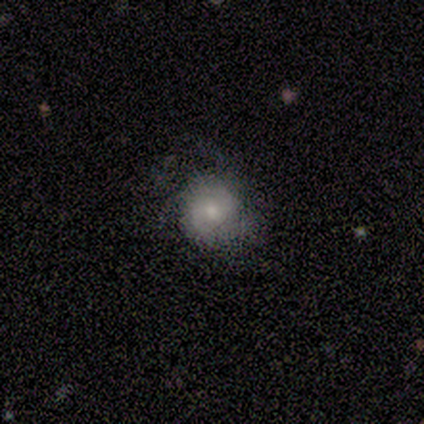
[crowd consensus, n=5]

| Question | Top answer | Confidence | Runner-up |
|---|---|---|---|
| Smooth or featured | featured or disk | 60% | smooth (40%) |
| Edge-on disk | no | 100% | — |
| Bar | no | 100% | — |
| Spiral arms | no | 67% | yes (33%) |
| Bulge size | moderate | 67% | small (33%) |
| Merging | none | 40% | tied: minor disturbance (40%) |